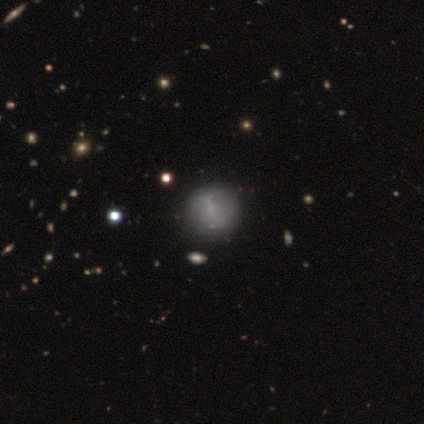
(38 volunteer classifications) This appears to be a smooth galaxy with no disk features (47%, tied with featured or disk) that is round (78%). Merging: none (47%).